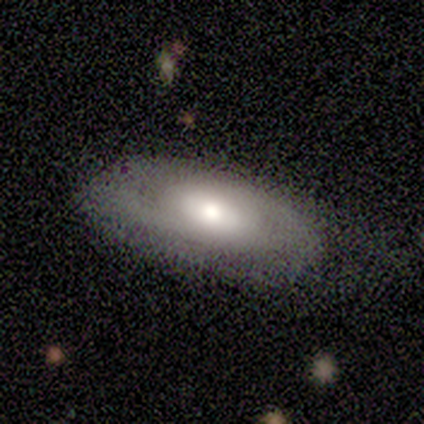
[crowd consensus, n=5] smooth_or_featured: smooth (p=1.00)
how_rounded: in between (p=1.00)
merging: none (p=0.60) [alt: minor disturbance p=0.20]